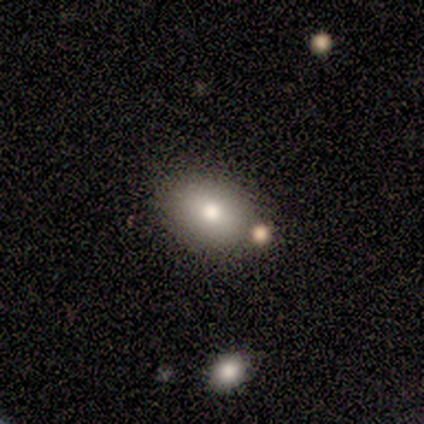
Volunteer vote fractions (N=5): smooth_or_featured: smooth (p=0.60) [alt: featured or disk p=0.20]
how_rounded: in between (p=1.00)
merging: none (p=0.75) [alt: minor disturbance p=0.25]